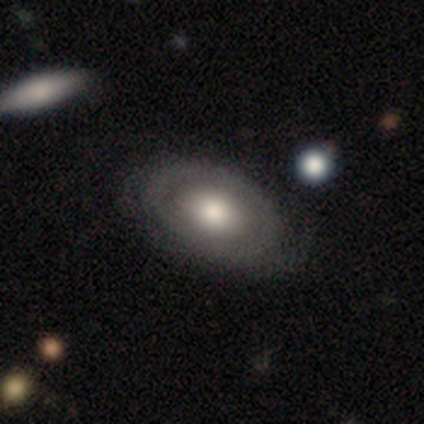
Smooth or featured? smooth (48%)
How rounded? in between (88%)
Merging? none (72%)